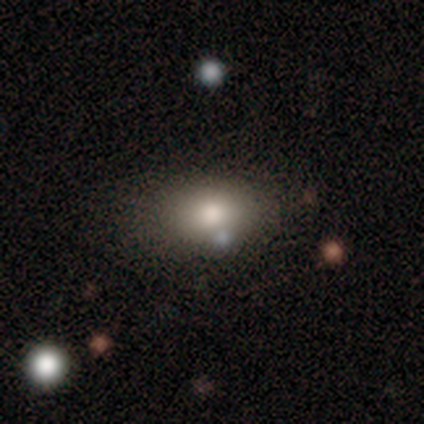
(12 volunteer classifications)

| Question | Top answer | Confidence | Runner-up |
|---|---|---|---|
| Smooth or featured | smooth | 83% | featured or disk (8%) |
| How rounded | in between | 90% | round (10%) |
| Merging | none | 55% | minor disturbance (18%) |